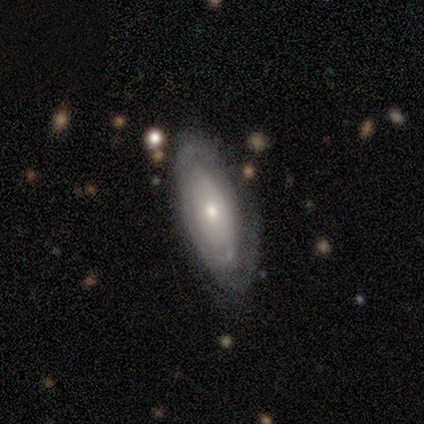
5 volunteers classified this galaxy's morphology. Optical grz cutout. It shows a featured or disk galaxy (60%) with no bar (67%), 2 (50%, tied with can't tell) tight (100%) spiral arms (67%) and a small central bulge (67%). Merging: minor disturbance (60%).